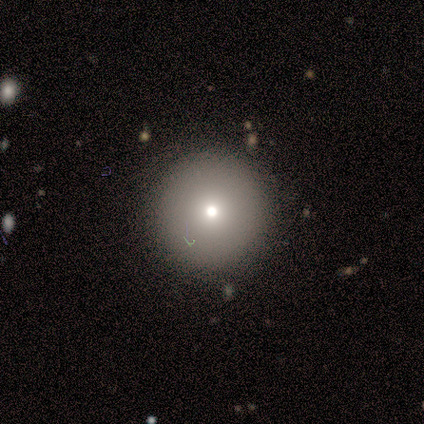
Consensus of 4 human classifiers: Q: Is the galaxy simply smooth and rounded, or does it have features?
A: smooth — 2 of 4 (50%).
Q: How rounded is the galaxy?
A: round — 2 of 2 (100%).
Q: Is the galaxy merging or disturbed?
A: none — 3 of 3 (100%).